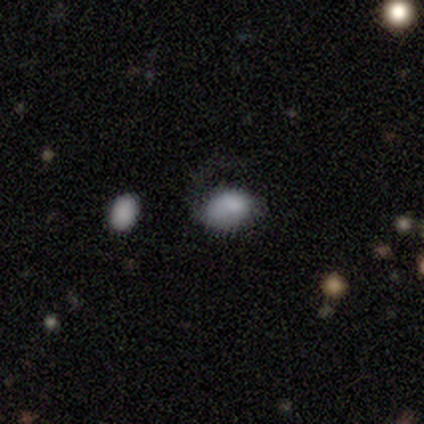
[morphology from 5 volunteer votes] type=smooth (60%); roundness=in between (100%); merging=none (75%).